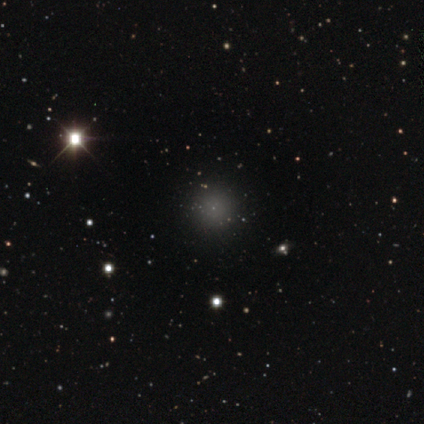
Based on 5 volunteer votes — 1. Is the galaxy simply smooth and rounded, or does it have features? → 60% smooth, 40% star or artifact, 0% featured or disk.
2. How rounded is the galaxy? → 100% round, 0% in between, 0% cigar-shaped.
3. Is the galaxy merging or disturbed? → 100% none, 0% minor disturbance, 0% major disturbance, 0% merger.